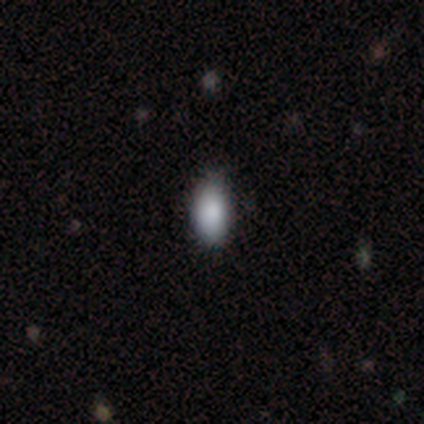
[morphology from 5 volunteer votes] Smooth or featured: smooth — 100%
How rounded: in between — 100%
Merging: none — 80% (minor disturbance — 20%)